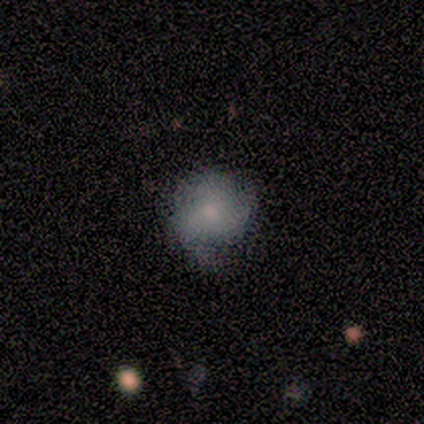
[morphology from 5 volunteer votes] A smooth galaxy with no disk features (40%, tied with featured or disk) that is round (100%). Merging: none (50%, tied with minor disturbance).